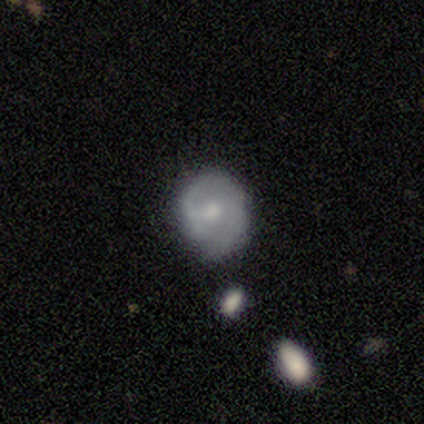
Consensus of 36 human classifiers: Q: Smooth or featured?
A: smooth (50%); runner-up: featured or disk (42%)
Q: How rounded?
A: round (56%); runner-up: in between (39%)
Q: Merging?
A: none (52%); runner-up: minor disturbance (45%)